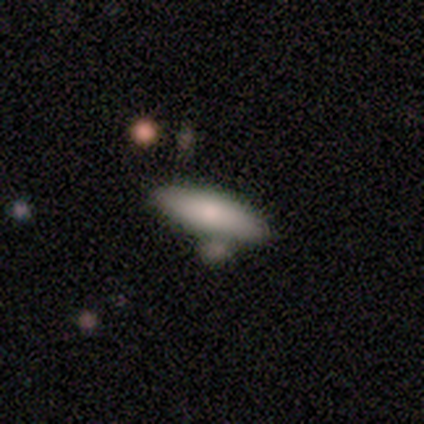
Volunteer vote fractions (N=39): A smooth galaxy with no disk features (72%) that is in between round and cigar-shaped (50%, tied with cigar-shaped). Merging: none (74%).